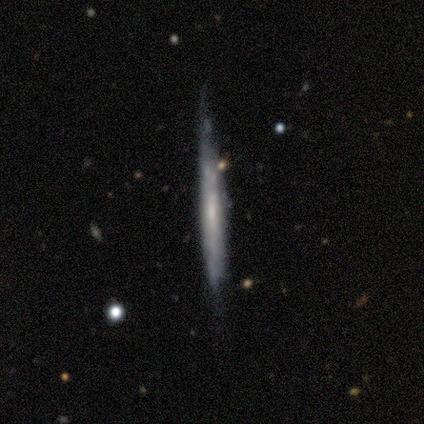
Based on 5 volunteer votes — A featured or disk galaxy (60%) viewed edge-on (100%) with no central bulge (67%). Merging: none (60%).